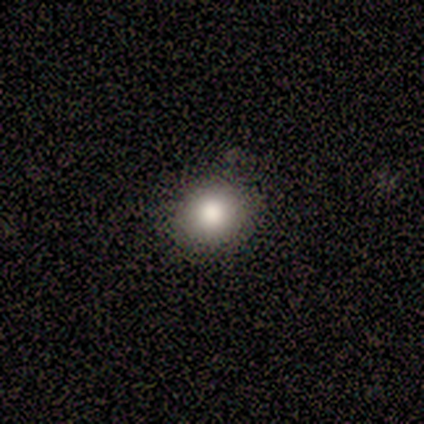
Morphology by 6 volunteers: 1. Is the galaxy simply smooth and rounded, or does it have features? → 67% smooth, 33% star or artifact, 0% featured or disk.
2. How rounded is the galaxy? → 50% round (tied), 50% in between (tied), 0% cigar-shaped.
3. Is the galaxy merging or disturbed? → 100% none, 0% minor disturbance, 0% major disturbance, 0% merger.